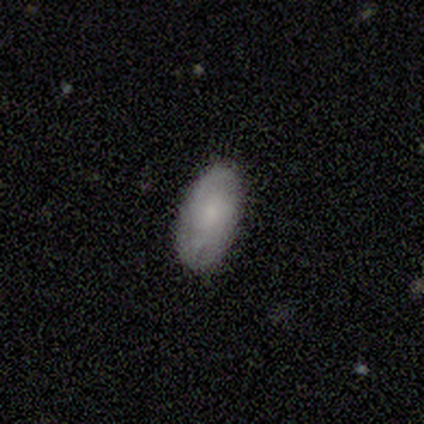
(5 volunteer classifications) Volunteers were most divided on "smooth or featured": smooth: 80%, featured or disk: 20%, star or artifact: 0%. More confident: how rounded — in between (100%); merging — none (100%).